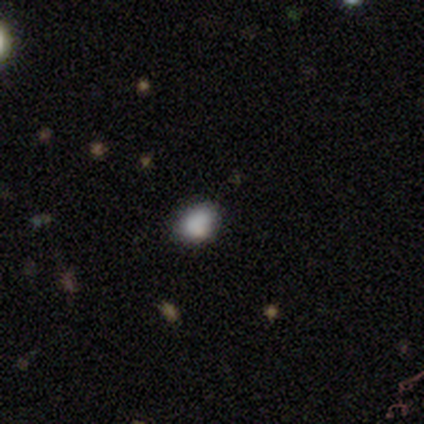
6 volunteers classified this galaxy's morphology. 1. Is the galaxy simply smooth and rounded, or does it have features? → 67% smooth, 33% star or artifact, 0% featured or disk.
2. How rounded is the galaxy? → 75% round, 25% in between, 0% cigar-shaped.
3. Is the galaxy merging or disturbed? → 100% none, 0% minor disturbance, 0% major disturbance, 0% merger.